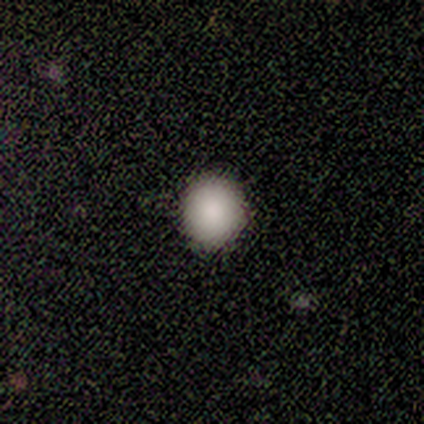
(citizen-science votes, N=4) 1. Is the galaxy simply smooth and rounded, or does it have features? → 100% smooth, 0% featured or disk, 0% star or artifact.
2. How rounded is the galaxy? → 100% round, 0% in between, 0% cigar-shaped.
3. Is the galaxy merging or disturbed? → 100% none, 0% minor disturbance, 0% major disturbance, 0% merger.